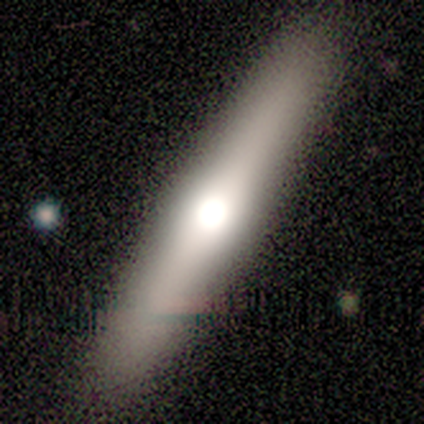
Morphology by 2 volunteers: A featured or disk galaxy (100%) viewed edge-on (100%) with no central bulge (50%, tied with rounded).

Vote fractions:
- Smooth or featured? featured or disk: 100% / smooth: 0% / star or artifact: 0%
- Edge-on disk? yes: 100% / no: 0%
- Edge-on bulge? none: 50% (tied) / rounded: 50% (tied) / boxy: 0%
- Merging? none: 100% / minor disturbance: 0% / major disturbance: 0% / merger: 0%